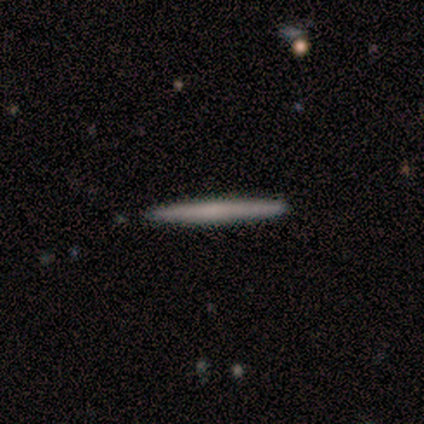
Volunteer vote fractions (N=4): Smooth or featured? smooth (50%, tied with featured or disk)
How rounded? cigar-shaped (100%)
Merging? none (100%)